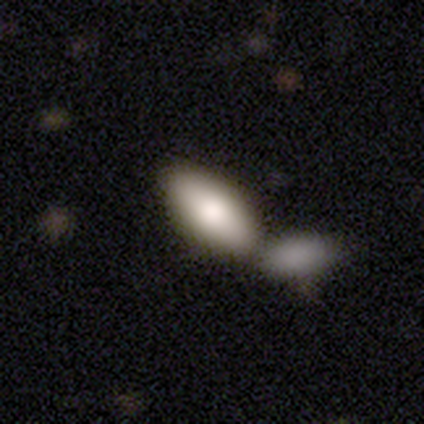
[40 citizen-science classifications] A smooth galaxy with no disk features (82%) that is in between round and cigar-shaped (91%).

Vote fractions:
- Smooth or featured? smooth: 82% / featured or disk: 12% / star or artifact: 5%
- How rounded? in between: 91% / cigar-shaped: 9% / round: 0%
- Merging? merger: 58% / none: 39% / minor disturbance: 0% / major disturbance: 0%